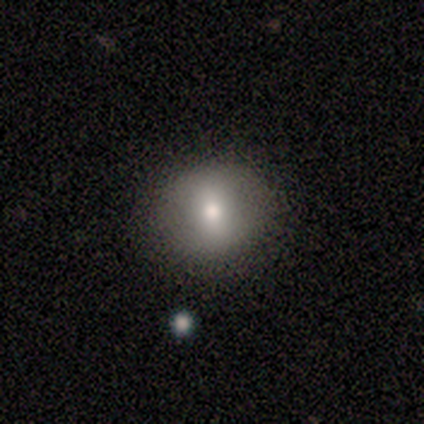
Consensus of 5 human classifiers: Smooth or featured?
  - smooth: 40% * (tied)
  - featured or disk: 40% * (tied)
  - star or artifact: 20%
How rounded?
  - round: 100% *
  - in between: 0%
  - cigar-shaped: 0%
Merging?
  - none: 100% *
  - minor disturbance: 0%
  - major disturbance: 0%
  - merger: 0%